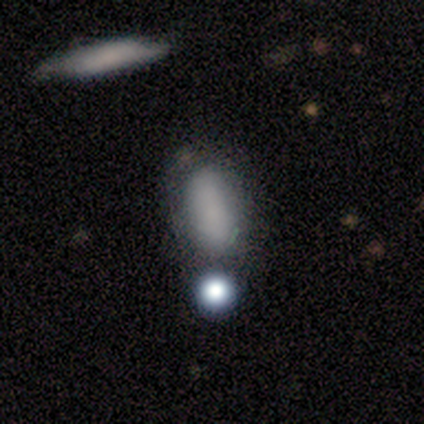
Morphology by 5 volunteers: Smooth or featured: smooth — 80% (star or artifact — 20%)
How rounded: round — 50% (tied with in between — 50%)
Merging: none — 50% (tied with major disturbance — 50%)